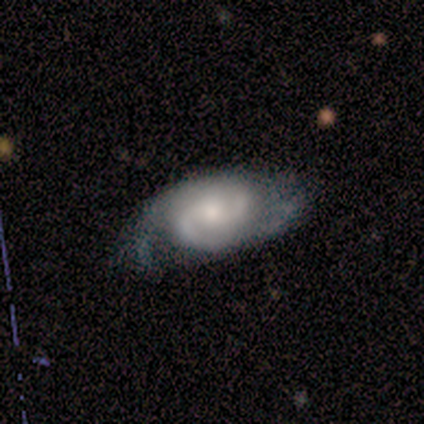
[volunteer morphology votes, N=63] Volunteers were most divided on "bar": no: 49%, weak: 47%, strong: 4%. More confident: edge-on disk — no (100%); spiral arms — yes (98%); spiral arm count — 2 (88%); smooth or featured — featured or disk (81%); bulge size — moderate (57%); merging — none (53%); spiral winding — medium (52%).